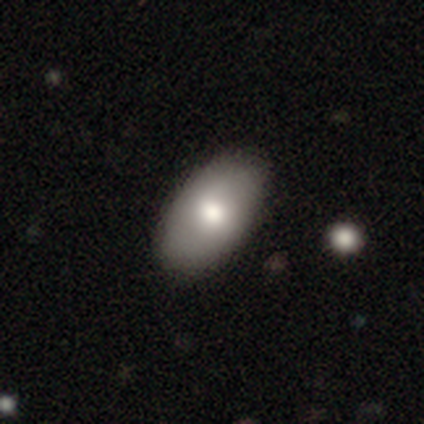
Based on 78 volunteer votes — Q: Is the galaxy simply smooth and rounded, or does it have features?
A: smooth — 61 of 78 (78%).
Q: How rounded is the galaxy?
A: in between — 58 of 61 (95%).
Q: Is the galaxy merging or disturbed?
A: none — 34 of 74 (46%).